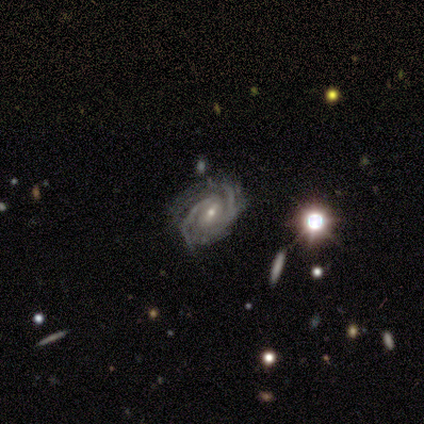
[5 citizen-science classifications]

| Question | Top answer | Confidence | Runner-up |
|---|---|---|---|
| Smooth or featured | featured or disk | 100% | — |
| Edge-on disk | no | 100% | — |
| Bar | strong | 40% | tied: weak (40%) |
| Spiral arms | yes | 100% | — |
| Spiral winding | tight | 40% | tied: medium (40%) |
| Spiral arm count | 2 | 40% | tied: can't tell (40%) |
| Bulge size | small | 60% | moderate (40%) |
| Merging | none | 80% | minor disturbance (20%) |